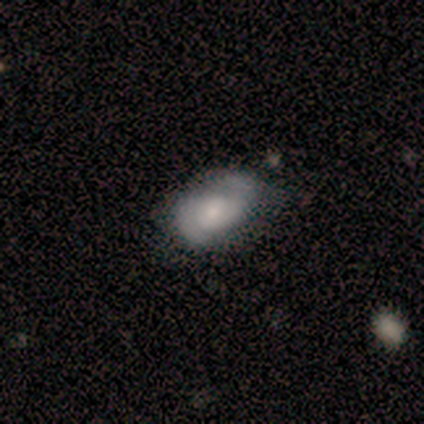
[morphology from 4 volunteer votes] This appears to be a smooth galaxy with no disk features (50%, tied with featured or disk) that is in between round and cigar-shaped (100%). Merging: none (50%, tied with minor disturbance).